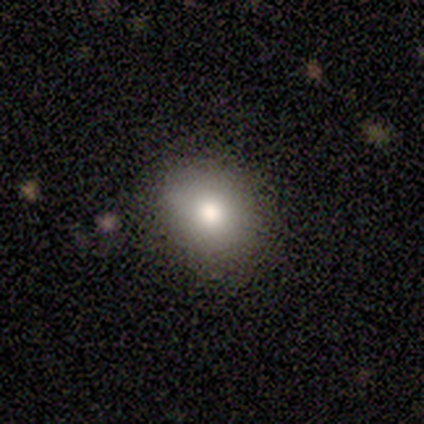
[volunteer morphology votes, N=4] Q: Smooth or featured?
A: smooth (100%)
Q: How rounded?
A: round (50%); tied with: in between (50%)
Q: Merging?
A: none (50%); runner-up: minor disturbance (25%)